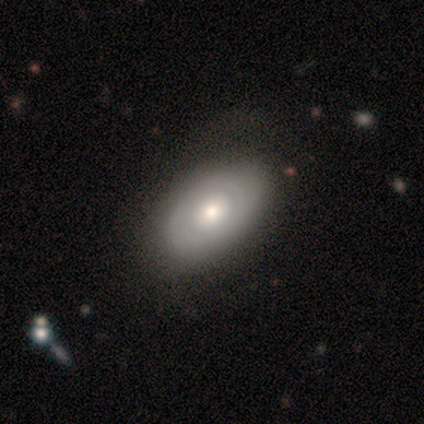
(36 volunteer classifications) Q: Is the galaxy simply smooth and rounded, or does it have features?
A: smooth — 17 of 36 (47%).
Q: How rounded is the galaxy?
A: in between — 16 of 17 (94%).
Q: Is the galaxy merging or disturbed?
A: none — 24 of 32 (75%).